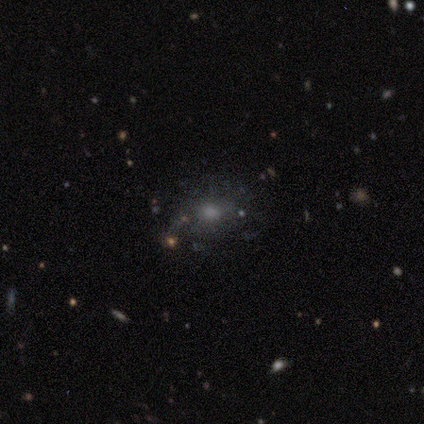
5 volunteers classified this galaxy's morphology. This is clearly a smooth galaxy (80%). How rounded: clearly round (100%). Merging: clearly none (100%).